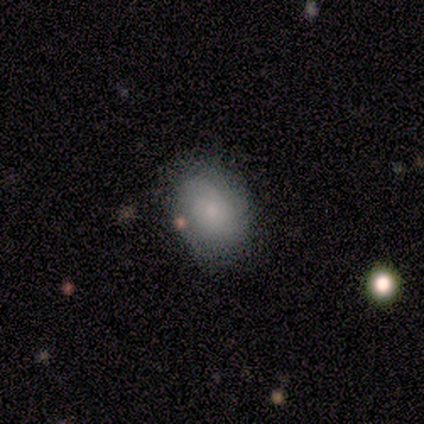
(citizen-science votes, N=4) Smooth or featured?
  - smooth: 75% *
  - featured or disk: 25%
  - star or artifact: 0%
How rounded?
  - in between: 67% *
  - round: 33%
  - cigar-shaped: 0%
Merging?
  - none: 75% *
  - minor disturbance: 25%
  - major disturbance: 0%
  - merger: 0%